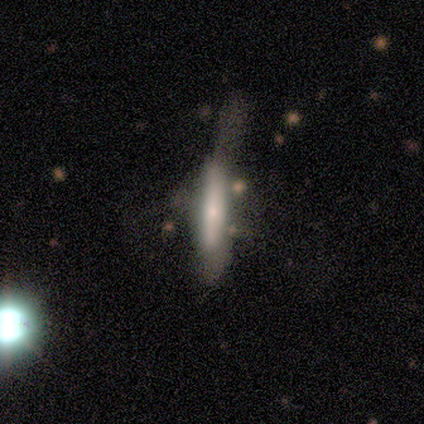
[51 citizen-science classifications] Overall: smooth (61%; featured or disk 31%). How rounded: cigar-shaped (87%). Merging: major disturbance (45%; none 34%).